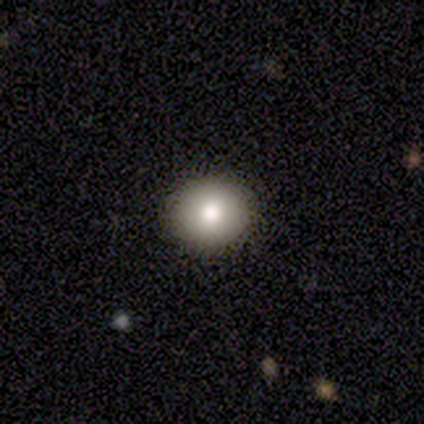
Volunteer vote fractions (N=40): smooth 80%, featured or disk 15%, star or artifact 5%. Down the decision tree: how rounded — round (88%); merging — none (92%).